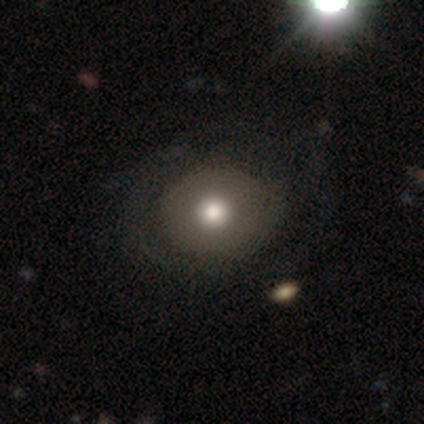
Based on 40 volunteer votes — Q: Smooth or featured?
A: smooth (80%); runner-up: featured or disk (18%)
Q: How rounded?
A: round (72%); runner-up: in between (28%)
Q: Merging?
A: none (56%); runner-up: major disturbance (10%)